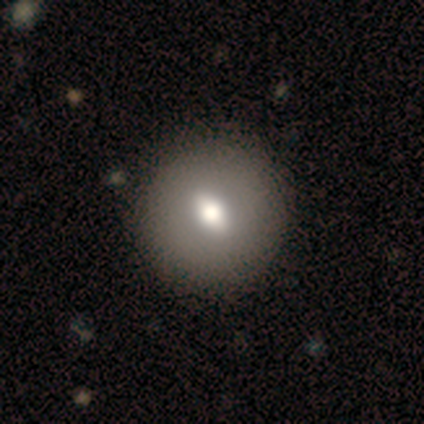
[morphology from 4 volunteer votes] A featured or disk galaxy (100%) with a weak bar (75%), no spiral arms (100%) and a moderate central bulge (75%). Merging: none (100%).